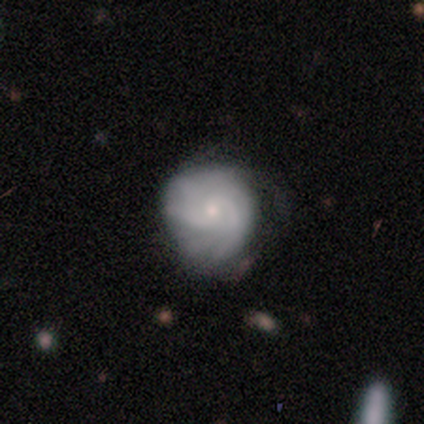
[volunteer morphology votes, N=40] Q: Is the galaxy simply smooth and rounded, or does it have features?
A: featured or disk — 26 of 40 (65%).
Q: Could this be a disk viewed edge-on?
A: no — 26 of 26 (100%).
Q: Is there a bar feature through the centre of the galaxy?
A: no — 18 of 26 (69%).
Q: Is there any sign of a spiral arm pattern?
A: yes — 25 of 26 (96%).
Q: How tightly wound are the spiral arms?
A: tight — 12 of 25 (48%).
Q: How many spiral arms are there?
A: can't tell — 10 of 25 (40%).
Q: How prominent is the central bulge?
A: small — 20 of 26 (77%).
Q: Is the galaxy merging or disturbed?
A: none — 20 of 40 (50%).